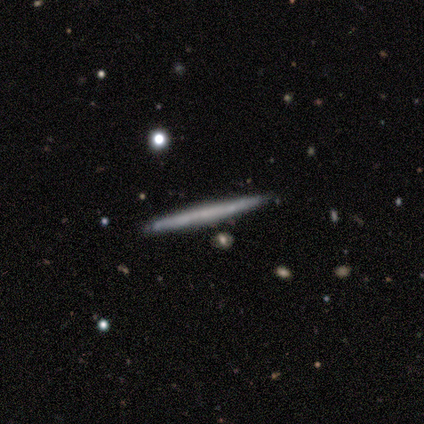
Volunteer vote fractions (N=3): Smooth or featured? 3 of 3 (100%) said featured or disk. Edge-on disk? 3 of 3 (100%) said yes. Edge-on bulge? 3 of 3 (100%) said none. Merging? 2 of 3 (67%) said none.